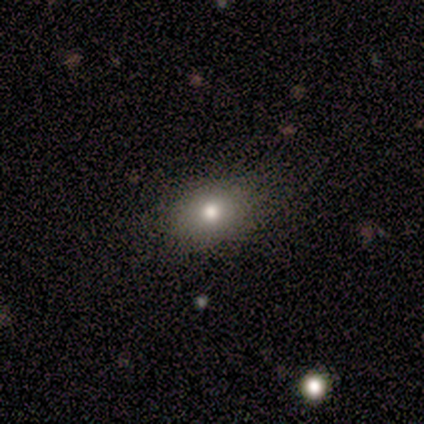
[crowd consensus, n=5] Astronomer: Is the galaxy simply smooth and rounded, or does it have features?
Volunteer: smooth — 100%.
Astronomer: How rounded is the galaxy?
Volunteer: in between — 60% (runner-up: round, 40%).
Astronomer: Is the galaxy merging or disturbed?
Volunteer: none — 100%.